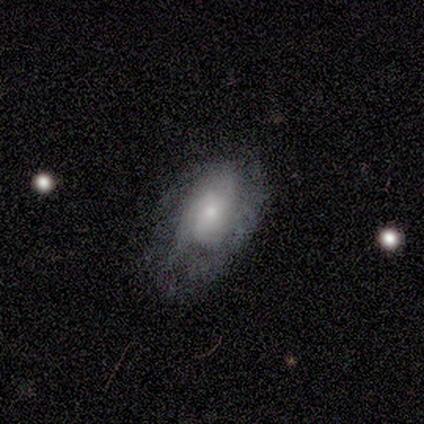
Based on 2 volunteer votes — Morphology: type=smooth (50%, tied with featured or disk); roundness=in between (100%); merging=none (100%).